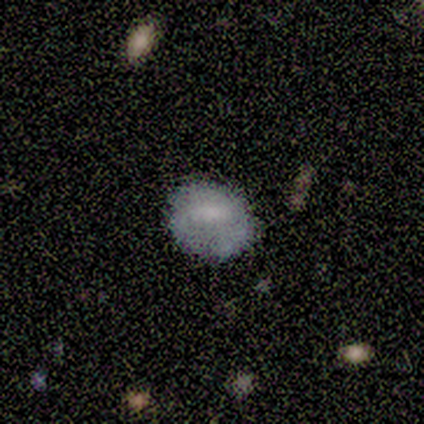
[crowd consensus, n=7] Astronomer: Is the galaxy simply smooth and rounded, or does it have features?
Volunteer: smooth — 71%.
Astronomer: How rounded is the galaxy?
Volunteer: round — 60% (runner-up: in between, 40%).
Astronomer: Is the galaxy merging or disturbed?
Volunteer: none — 83%.